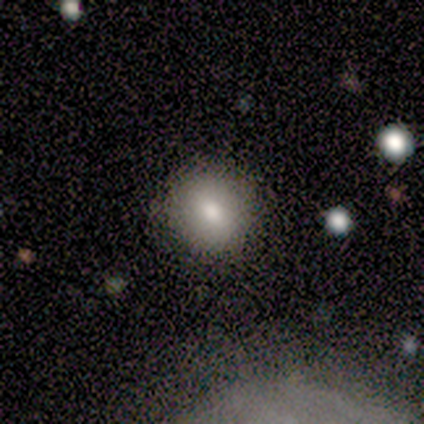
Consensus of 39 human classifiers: This is likely a smooth galaxy (72%). How rounded: likely round (68%). Merging: clearly none (85%).